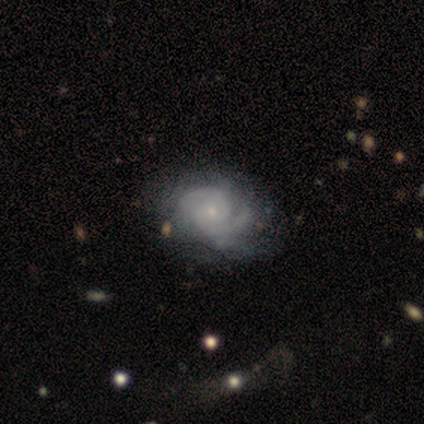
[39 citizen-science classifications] Smooth or featured? 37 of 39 (95%) said featured or disk. Edge-on disk? 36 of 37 (97%) said no. Bar? 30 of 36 (83%) said no. Spiral arms? 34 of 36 (94%) said yes. Spiral winding? 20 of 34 (59%) said tight. Spiral arm count? 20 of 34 (59%) said 2. Bulge size? 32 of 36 (89%) said small. Merging? 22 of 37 (59%) said none.